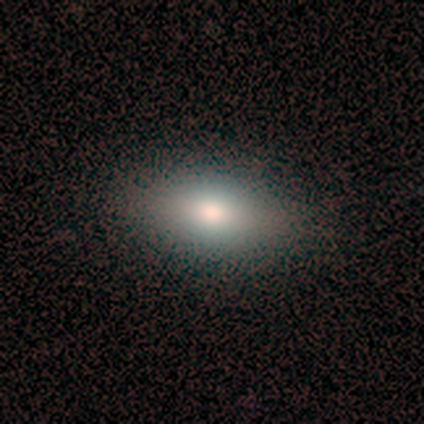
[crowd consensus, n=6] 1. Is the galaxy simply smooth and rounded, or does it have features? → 50% smooth, 33% star or artifact, 17% featured or disk.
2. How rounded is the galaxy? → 100% in between, 0% round, 0% cigar-shaped.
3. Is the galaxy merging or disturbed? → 100% none, 0% minor disturbance, 0% major disturbance, 0% merger.